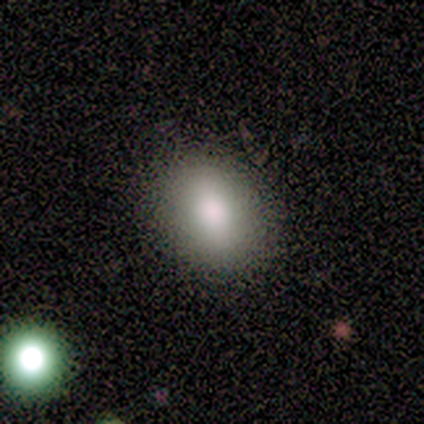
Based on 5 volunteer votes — A smooth galaxy with no disk features (60%) that is in between round and cigar-shaped (100%). Merging: none (75%).